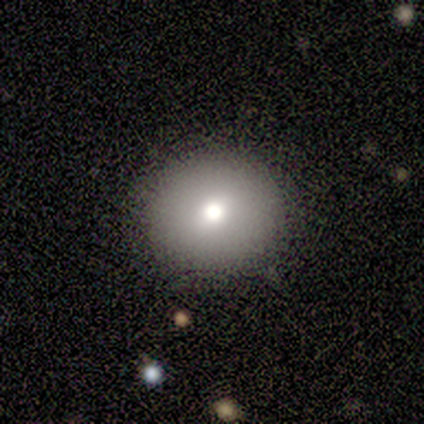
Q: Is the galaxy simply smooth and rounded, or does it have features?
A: smooth — 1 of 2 (50%, tied with star or artifact).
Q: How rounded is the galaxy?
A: round — 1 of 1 (100%).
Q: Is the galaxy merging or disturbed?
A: none — 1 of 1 (100%).